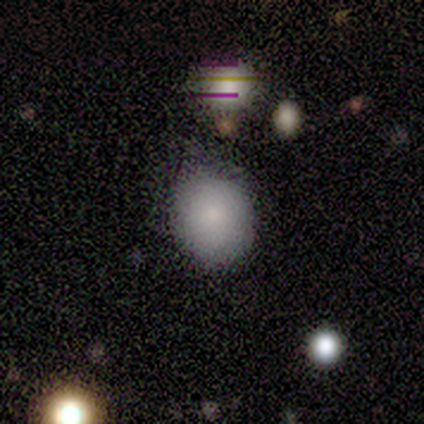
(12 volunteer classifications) Smooth or featured? smooth (100%)
How rounded? round (83%)
Merging? none (75%)